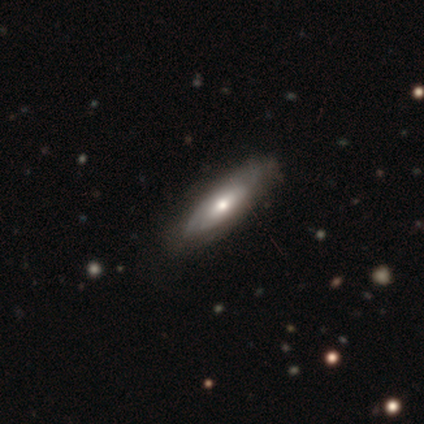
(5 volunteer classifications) smooth_or_featured: featured or disk (p=0.60) [alt: smooth p=0.20]
disk_edge_on: yes (p=0.67) [alt: no p=0.33]
edge_on_bulge: none (p=0.50) [tied with: rounded p=0.50]
merging: none (p=0.50) [tied with: minor disturbance p=0.50]